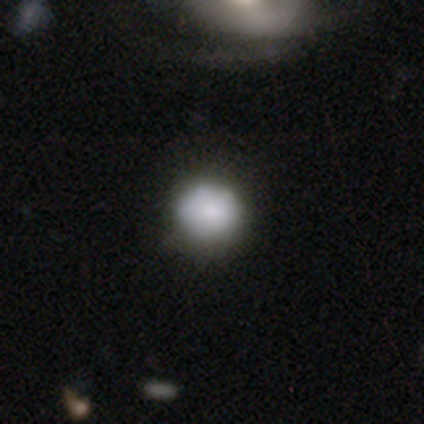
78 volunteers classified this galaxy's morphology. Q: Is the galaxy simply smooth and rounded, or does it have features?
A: smooth — 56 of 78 (72%).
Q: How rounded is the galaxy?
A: round — 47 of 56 (84%).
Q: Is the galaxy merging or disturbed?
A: none — 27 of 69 (39%).